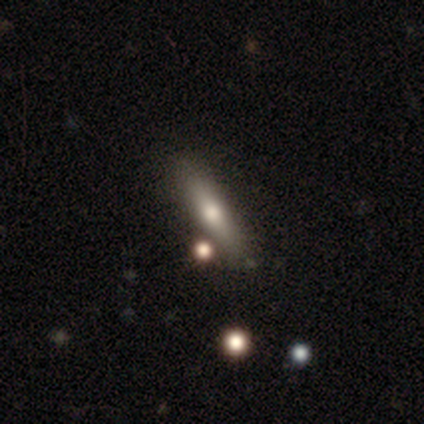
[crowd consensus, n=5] A smooth galaxy with no disk features (40%, tied with featured or disk) that is cigar-shaped (100%).

Vote fractions:
- Smooth or featured? smooth: 40% (tied) / featured or disk: 40% (tied) / star or artifact: 20%
- How rounded? cigar-shaped: 100% / round: 0% / in between: 0%
- Merging? none: 75% / minor disturbance: 25% / major disturbance: 0% / merger: 0%